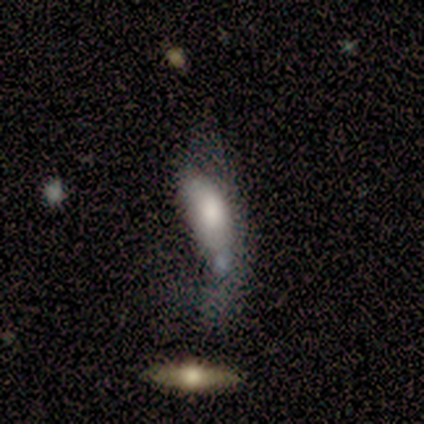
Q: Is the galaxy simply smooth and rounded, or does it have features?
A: smooth — 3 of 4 (75%).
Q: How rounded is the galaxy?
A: in between — 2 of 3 (67%).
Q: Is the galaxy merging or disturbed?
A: major disturbance — 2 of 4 (50%, tied with merger).